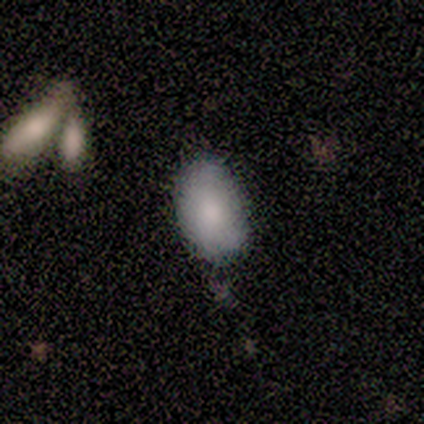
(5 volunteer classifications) smooth_or_featured: smooth (p=0.80) [alt: featured or disk p=0.20]
how_rounded: in between (p=0.75) [alt: round p=0.25]
merging: none (p=1.00)